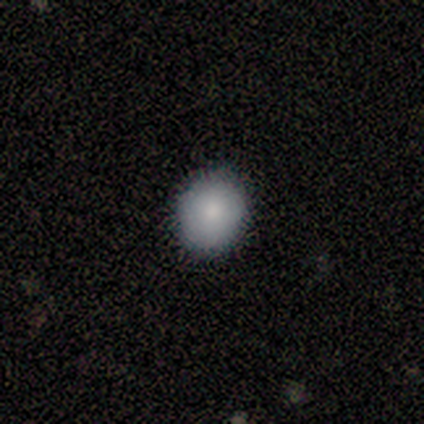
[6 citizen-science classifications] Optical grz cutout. It shows a smooth galaxy with no disk features (100%) that is round (83%). Merging: none (100%).